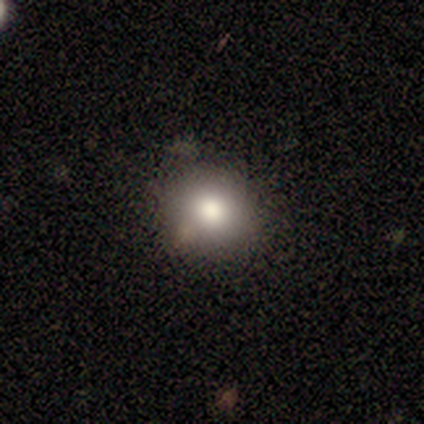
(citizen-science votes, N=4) smooth 50%, featured or disk 25%, star or artifact 25%. Down the decision tree: how rounded — round (50%, tied with in between); merging — none (100%).